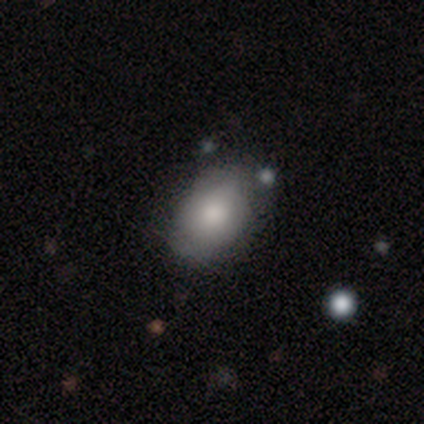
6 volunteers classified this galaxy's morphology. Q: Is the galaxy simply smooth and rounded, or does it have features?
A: smooth — 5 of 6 (83%).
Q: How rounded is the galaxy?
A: in between — 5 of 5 (100%).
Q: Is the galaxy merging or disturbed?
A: none — 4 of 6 (67%).